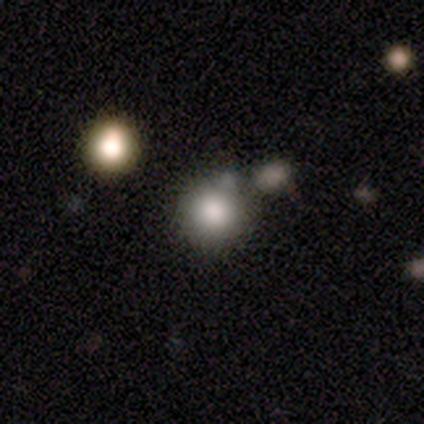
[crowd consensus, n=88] This is likely a smooth galaxy (75%). How rounded: clearly round (97%). Merging: likely none (68%).